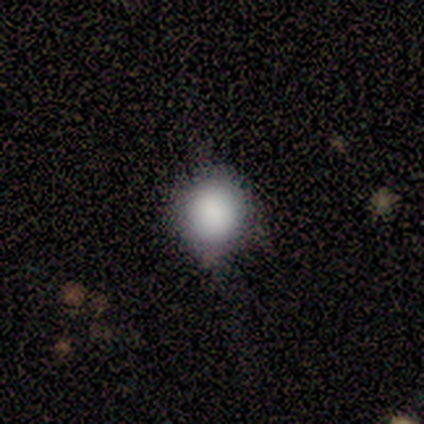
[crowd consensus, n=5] This appears to be a smooth galaxy with no disk features (80%) that is round (100%). Merging: none (60%).